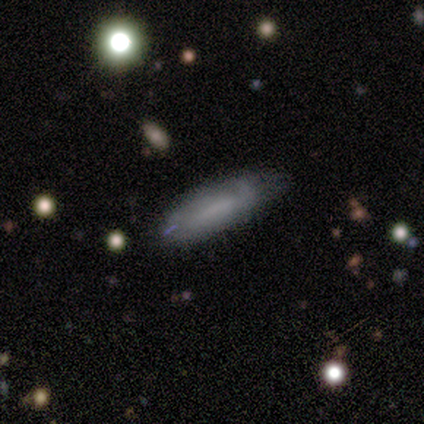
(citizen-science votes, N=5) Volunteers were most divided on "merging" (2-way tie): none: 50%, minor disturbance: 50%, major disturbance: 0%, merger: 0%. More confident: how rounded — in between (100%); smooth or featured — smooth (80%).